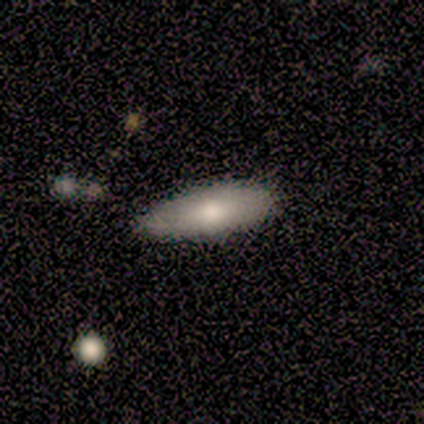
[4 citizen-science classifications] This is likely a smooth galaxy (75%). How rounded: clearly cigar-shaped (100%). Merging: likely none (75%).